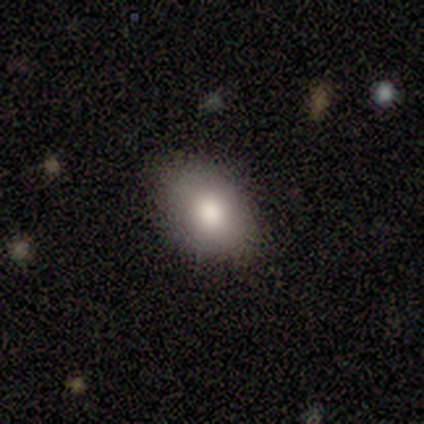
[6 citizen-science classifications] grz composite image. It shows a smooth galaxy with no disk features (83%) that is in between round and cigar-shaped (100%). Merging: none (100%).